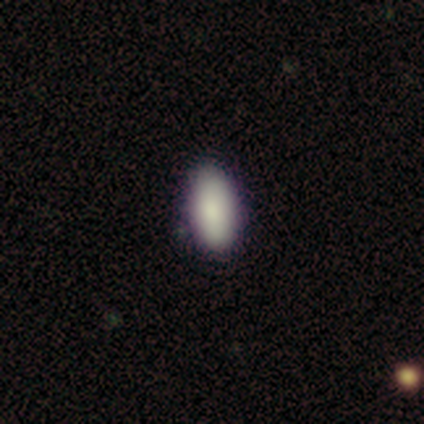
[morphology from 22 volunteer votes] Q: Smooth or featured?
A: smooth (91%); runner-up: featured or disk (5%)
Q: How rounded?
A: in between (95%); runner-up: cigar-shaped (5%)
Q: Merging?
A: none (81%); runner-up: minor disturbance (19%)